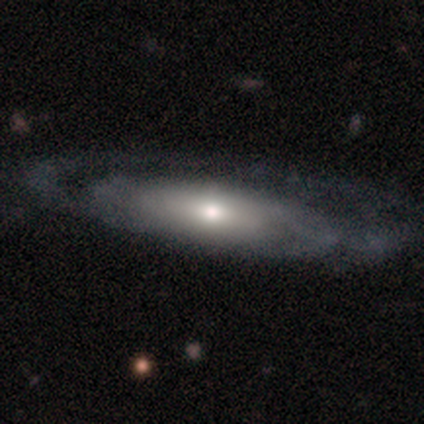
Smooth or featured?
  - featured or disk: 82% *
  - smooth: 18%
  - star or artifact: 0%
Edge-on disk?
  - no: 74% *
  - yes: 26%
Bar?
  - no: 73% *
  - weak: 18%
  - strong: 8%
Spiral arms?
  - yes: 67% *
  - no: 33%
Spiral winding?
  - tight: 61% *
  - medium: 27%
  - loose: 12%
Spiral arm count?
  - 2: 39% *
  - can't tell: 30%
  - 1: 27%
  - more than 4: 3%
  - 3: 0%
  - 4: 0%
Bulge size?
  - moderate: 51% *
  - small: 24%
  - large: 18%
  - dominant: 6%
  - none: 0%
Merging?
  - none: 40% *
  - major disturbance: 10%
  - minor disturbance: 6%
  - merger: 1%